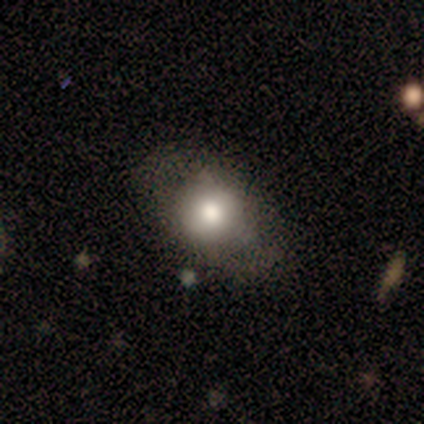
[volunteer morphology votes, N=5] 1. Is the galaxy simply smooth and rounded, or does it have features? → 60% smooth, 20% featured or disk, 20% star or artifact.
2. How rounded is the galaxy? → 100% round, 0% in between, 0% cigar-shaped.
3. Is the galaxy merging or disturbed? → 75% none, 25% major disturbance, 0% minor disturbance, 0% merger.